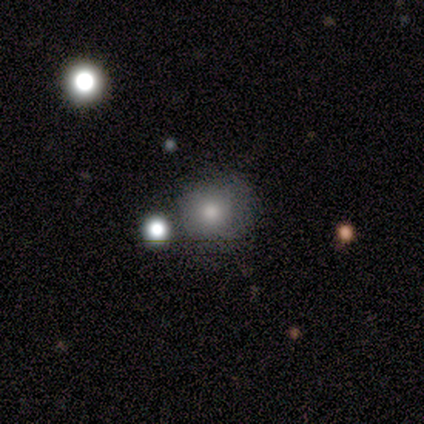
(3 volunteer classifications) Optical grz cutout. It shows a smooth galaxy with no disk features (100%) that is round (67%). Merging: none (33%, tied with minor disturbance and major disturbance).